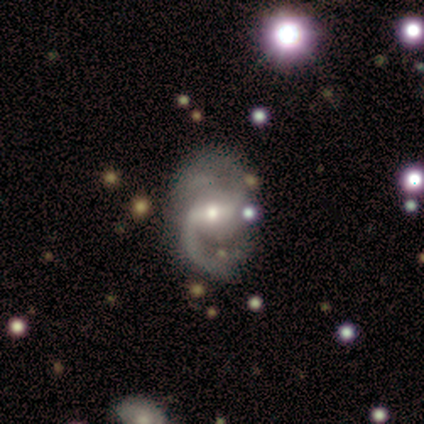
Overall: featured or disk (95%). Edge-on disk: no (94%). Bar: strong (41%, tied with weak). Spiral arms: yes (97%). Spiral arm count: 2 (76%). Spiral winding: medium (42%; loose 36%). Bulge size: small (44%; moderate 41%). Merging: none (65%).